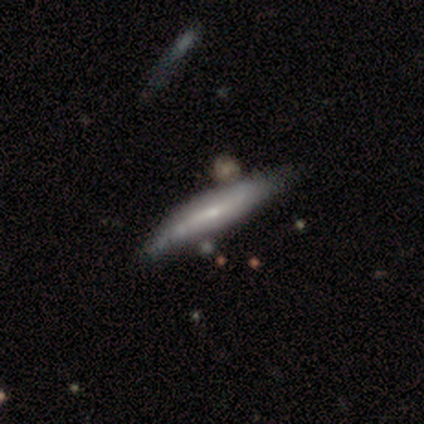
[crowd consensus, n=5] This appears to be a smooth galaxy with no disk features (40%, tied with featured or disk) that is cigar-shaped (100%). Merging: minor disturbance (50%).